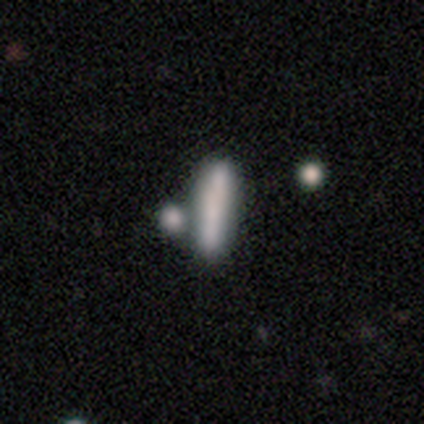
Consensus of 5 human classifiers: Overall: smooth (80%). How rounded: cigar-shaped (75%). Merging: none (40%, tied with merger).